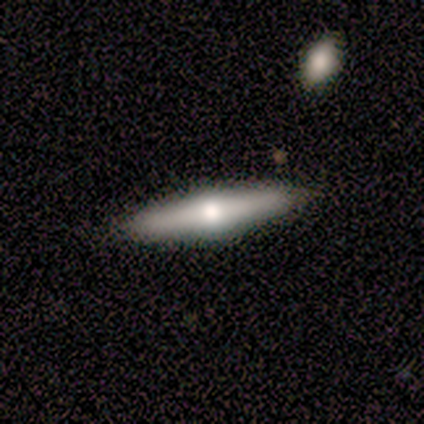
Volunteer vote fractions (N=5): Overall: smooth (60%; featured or disk 40%). How rounded: cigar-shaped (100%). Merging: none (80%).